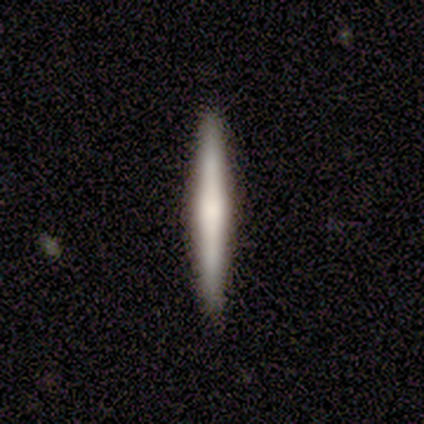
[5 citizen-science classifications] This is marginally a smooth galaxy (40%, tied with featured or disk). How rounded: clearly cigar-shaped (100%). Merging: likely none (75%).